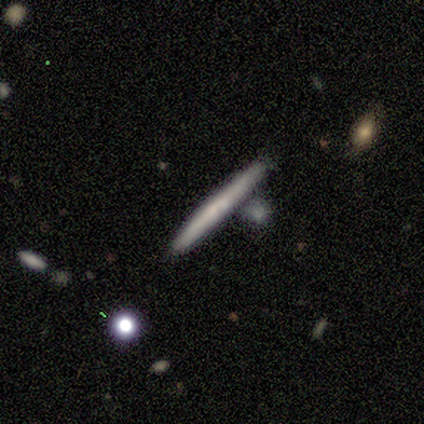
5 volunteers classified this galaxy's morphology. A smooth galaxy with no disk features (60%) that is cigar-shaped (67%). Merging: none (75%).